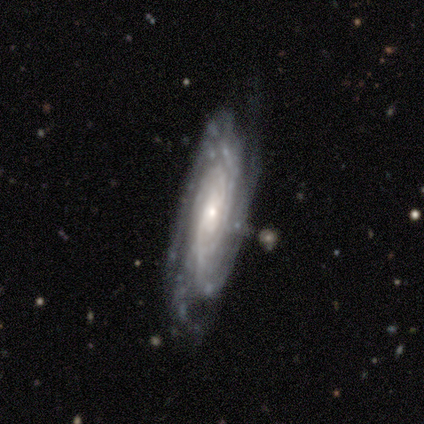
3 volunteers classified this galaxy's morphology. type=featured or disk (67%); edge-on=yes (50%, tied with no); edge-on bulge=rounded (100%); merging=none (33%, tied with minor disturbance and merger).